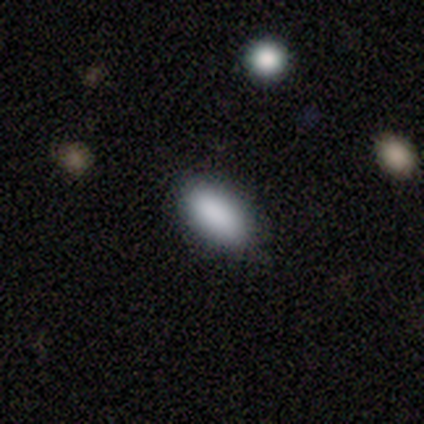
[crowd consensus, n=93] Volunteers were most divided on "merging": none: 87%, minor disturbance: 12%, merger: 1%, major disturbance: 0%. More confident: smooth or featured — smooth (90%); how rounded — in between (87%).